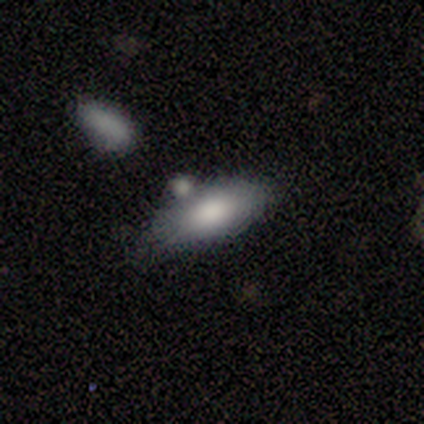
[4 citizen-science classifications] Q: Smooth or featured?
A: smooth (100%)
Q: How rounded?
A: in between (75%); runner-up: cigar-shaped (25%)
Q: Merging?
A: minor disturbance (50%); runner-up: none (25%)